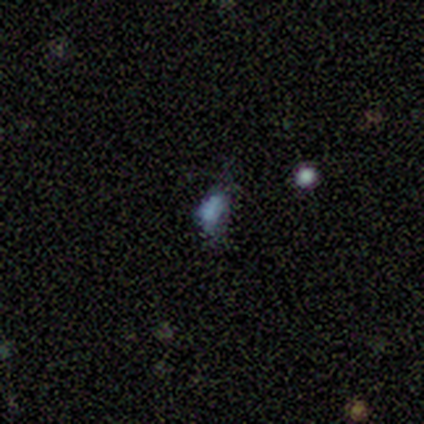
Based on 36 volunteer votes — smooth 36%, featured or disk 33%, star or artifact 31%. Down the decision tree: how rounded — in between (92%); merging — none (48%).